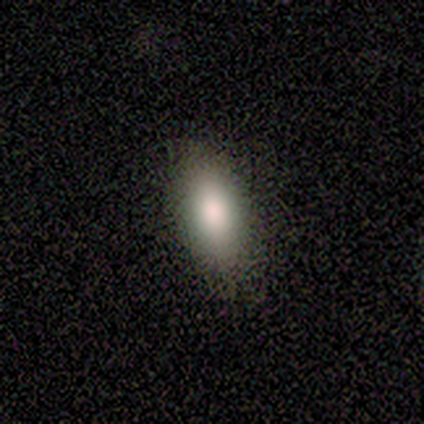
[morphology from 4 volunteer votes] Overall: smooth (75%). How rounded: in between (100%). Merging: none (67%; minor disturbance 33%).